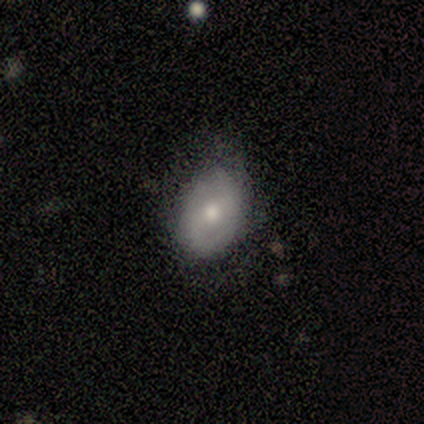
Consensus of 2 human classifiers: Smooth or featured? 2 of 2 (100%) said smooth. How rounded? 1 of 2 (50%, tied with in between) said round. Merging? 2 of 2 (100%) said minor disturbance.